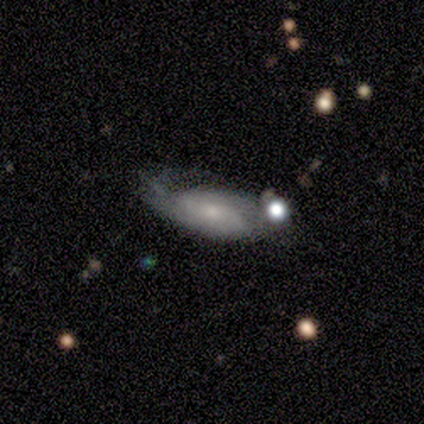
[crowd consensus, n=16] A featured or disk galaxy (69%) with no bar (89%), tight (50%) spiral arms (67%) and a small central bulge (78%).

Vote fractions:
- Smooth or featured? featured or disk: 69% / smooth: 31% / star or artifact: 0%
- Edge-on disk? no: 82% / yes: 18%
- Bar? no: 89% / weak: 11% / strong: 0%
- Spiral arms? yes: 67% / no: 33%
- Spiral winding? tight: 50% / medium: 33% / loose: 17%
- Spiral arm count? can't tell: 67% / 2: 33% / 1: 0% / 3: 0% / 4: 0% / more than 4: 0%
- Bulge size? small: 78% / dominant: 11% / moderate: 11% / large: 0% / none: 0%
- Merging? minor disturbance: 50% / major disturbance: 38% / none: 12% / merger: 0%